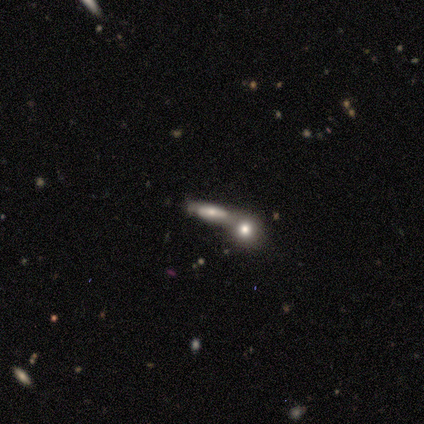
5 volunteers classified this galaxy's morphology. A smooth galaxy with no disk features (60%) that is cigar-shaped (67%). Merging: merger (100%).